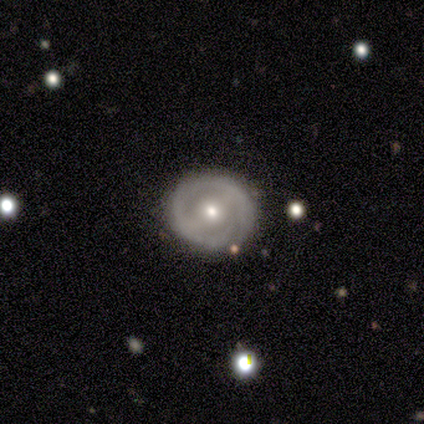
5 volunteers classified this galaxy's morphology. Q: Smooth or featured?
A: featured or disk (60%); runner-up: smooth (40%)
Q: Edge-on disk?
A: no (100%)
Q: Bar?
A: strong (33%); tied with: weak (33%); no (33%)
Q: Spiral arms?
A: yes (100%)
Q: Spiral winding?
A: tight (100%)
Q: Spiral arm count?
A: 2 (67%); runner-up: 3 (33%)
Q: Bulge size?
A: small (67%); runner-up: moderate (33%)
Q: Merging?
A: none (80%); runner-up: major disturbance (20%)